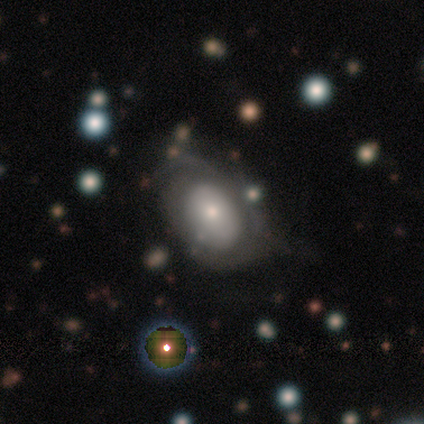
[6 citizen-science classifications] Smooth or featured: featured or disk — 83% (smooth — 17%)
Edge-on disk: no — 100%
Bar: no — 100%
Spiral arms: yes — 60% (no — 40%)
Spiral winding: tight — 67% (loose — 33%)
Spiral arm count: 1 — 33% (tied with 2 — 33%; can't tell — 33%)
Bulge size: moderate — 60% (dominant — 20%)
Merging: none — 67% (minor disturbance — 17%)